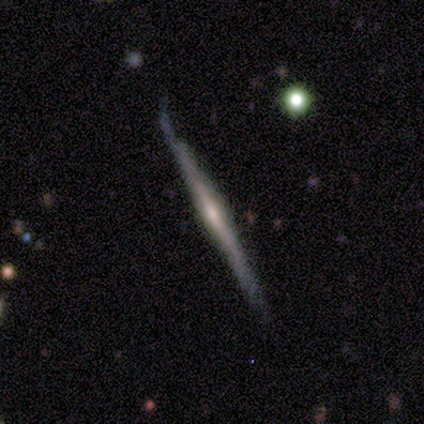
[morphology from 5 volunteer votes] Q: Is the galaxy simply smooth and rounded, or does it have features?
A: featured or disk — 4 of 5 (80%).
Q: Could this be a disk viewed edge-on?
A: yes — 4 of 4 (100%).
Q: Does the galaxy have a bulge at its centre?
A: none — 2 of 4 (50%, tied with rounded).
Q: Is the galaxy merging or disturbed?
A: none — 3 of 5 (60%).